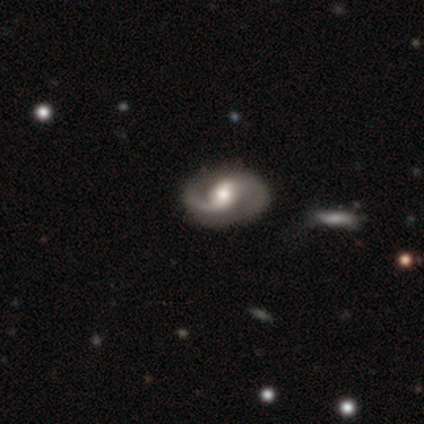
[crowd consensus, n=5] Volunteers were most divided on "merging": none: 60%, minor disturbance: 40%, major disturbance: 0%, merger: 0%. More confident: smooth or featured — featured or disk (100%); edge-on disk — no (100%); spiral arms — yes (100%); spiral arm count — 2 (100%); bar — weak (80%); spiral winding — medium (80%); bulge size — moderate (80%).